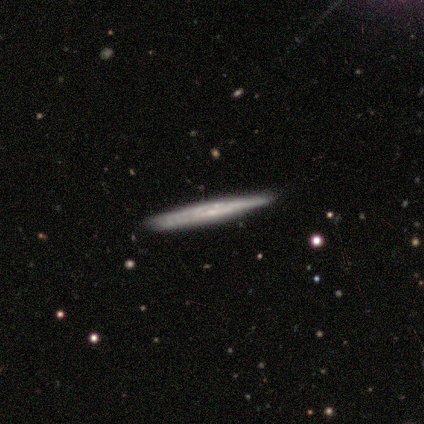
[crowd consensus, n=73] smooth-or-featured: featured or disk: 75% | smooth: 15% | star or artifact: 10%
  disk-edge-on: yes: 84% | no: 16%
    edge-on-bulge: none: 72% | rounded: 24% | boxy: 4%
  merging: none: 80% | minor disturbance: 18% | major disturbance: 2% | merger: 0%